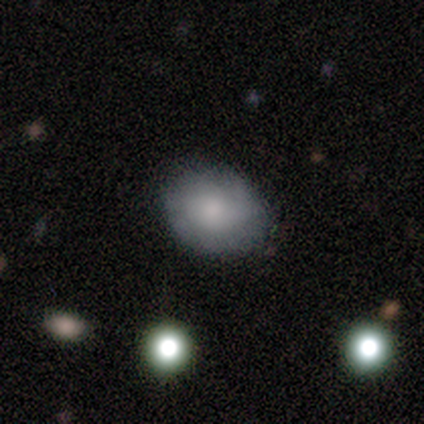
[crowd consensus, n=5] Morphology: type=smooth (60%); roundness=in between (67%); merging=none (80%).